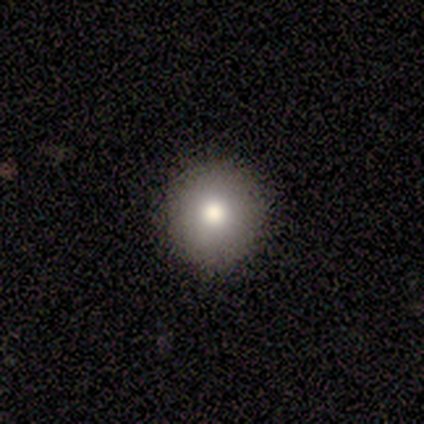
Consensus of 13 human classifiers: A smooth galaxy with no disk features (85%) that is round (100%). Merging: none (75%).